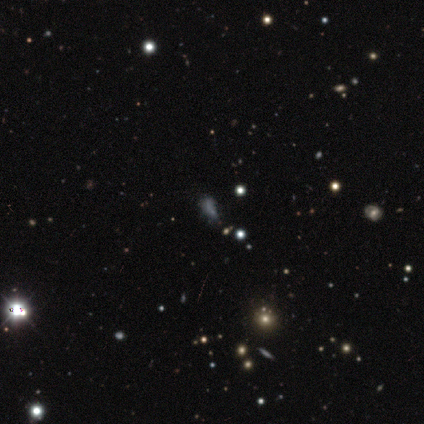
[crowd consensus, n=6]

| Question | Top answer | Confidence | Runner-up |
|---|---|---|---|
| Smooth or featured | smooth | 50% | star or artifact (33%) |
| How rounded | in between | 67% | cigar-shaped (33%) |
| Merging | major disturbance | 75% | minor disturbance (25%) |